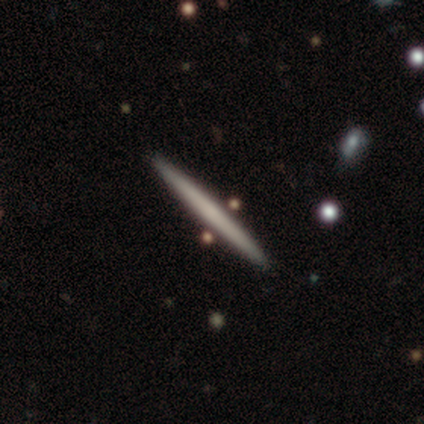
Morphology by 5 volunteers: This appears to be a smooth galaxy with no disk features (60%) that is cigar-shaped (100%). Merging: none (100%).